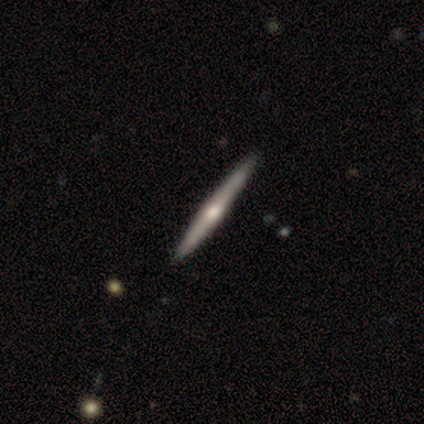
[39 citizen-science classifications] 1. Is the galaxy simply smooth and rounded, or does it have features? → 74% featured or disk, 21% smooth, 5% star or artifact.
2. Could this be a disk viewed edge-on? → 100% yes, 0% no.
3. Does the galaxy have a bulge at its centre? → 76% rounded, 24% none, 0% boxy.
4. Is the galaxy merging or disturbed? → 65% none, 5% minor disturbance, 3% merger, 0% major disturbance.